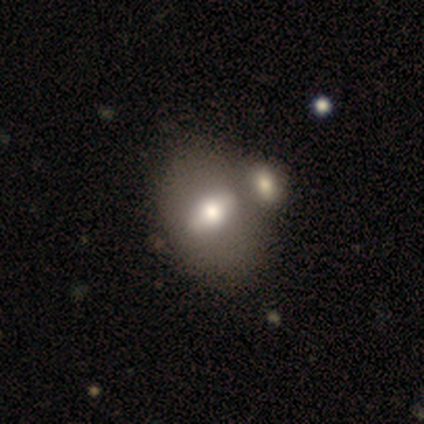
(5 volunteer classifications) Smooth or featured? 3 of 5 (60%) said featured or disk. Edge-on disk? 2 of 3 (67%) said no. Bar? 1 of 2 (50%, tied with no) said weak. Spiral arms? 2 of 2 (100%) said no. Bulge size? 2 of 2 (100%) said moderate. Merging? 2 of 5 (40%) said none.